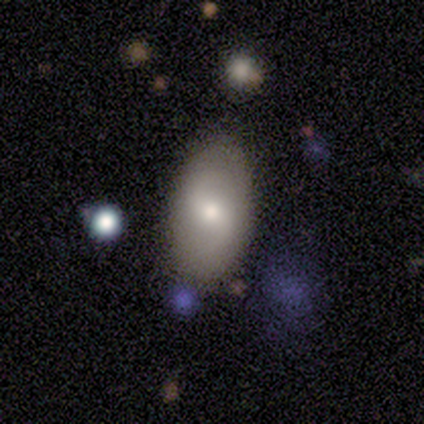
Smooth or featured? 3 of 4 (75%) said featured or disk. Edge-on disk? 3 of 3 (100%) said no. Bar? 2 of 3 (67%) said weak. Spiral arms? 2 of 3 (67%) said no. Bulge size? 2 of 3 (67%) said small. Merging? 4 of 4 (100%) said none.